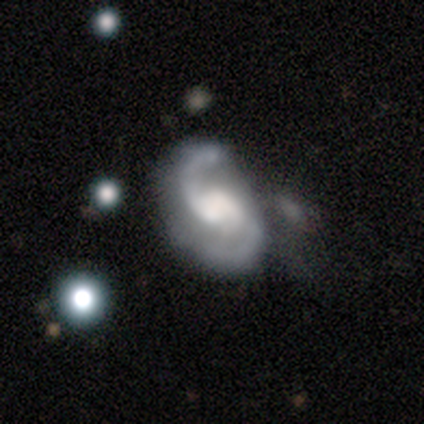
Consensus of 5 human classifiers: A featured or disk galaxy (100%) with no bar (60%), 2 (75%) medium (50%, tied with loose) spiral arms (80%) and no central bulge (60%). Merging: none (60%).